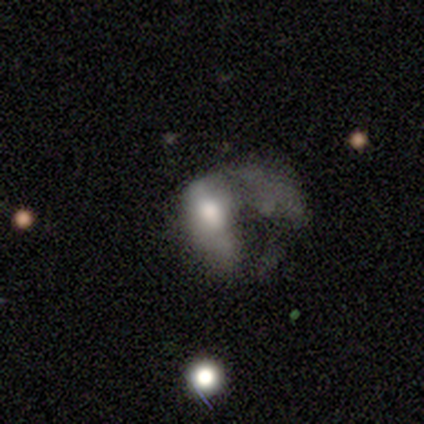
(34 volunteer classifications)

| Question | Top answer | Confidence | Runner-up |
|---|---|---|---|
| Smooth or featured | featured or disk | 47% | smooth (44%) |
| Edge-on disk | no | 100% | — |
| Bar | no | 75% | weak (19%) |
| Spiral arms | no | 100% | — |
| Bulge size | moderate | 44% | large (38%) |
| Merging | major disturbance | 77% | merger (16%) |